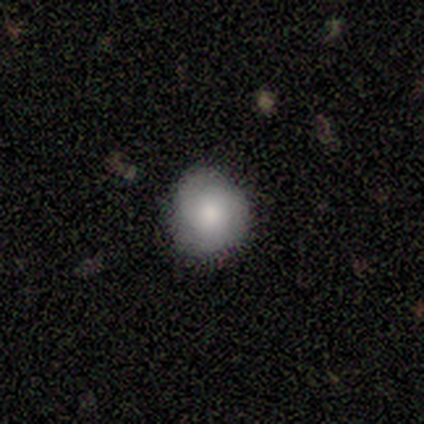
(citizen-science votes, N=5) smooth-or-featured: smooth: 100% | featured or disk: 0% | star or artifact: 0%
  how-rounded: round: 80% | in between: 20% | cigar-shaped: 0%
  merging: none: 80% | minor disturbance: 20% | major disturbance: 0% | merger: 0%